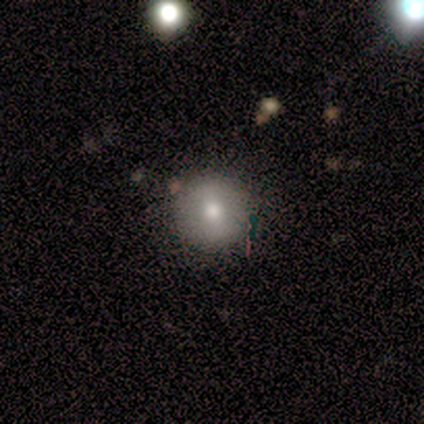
Smooth or featured?
  - smooth: 60% *
  - featured or disk: 20%
  - star or artifact: 20%
How rounded?
  - round: 100% *
  - in between: 0%
  - cigar-shaped: 0%
Merging?
  - none: 75% *
  - major disturbance: 25%
  - minor disturbance: 0%
  - merger: 0%